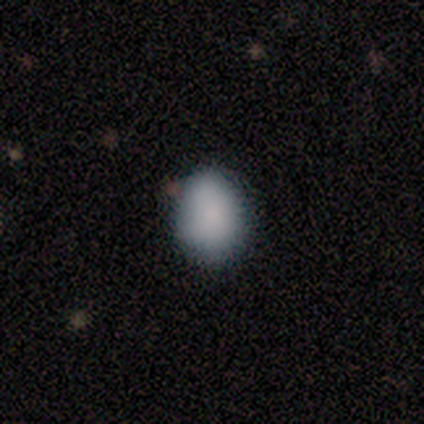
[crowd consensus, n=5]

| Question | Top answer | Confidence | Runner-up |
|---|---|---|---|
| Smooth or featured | smooth | 100% | — |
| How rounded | round | 60% | in between (40%) |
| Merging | none | 100% | — |